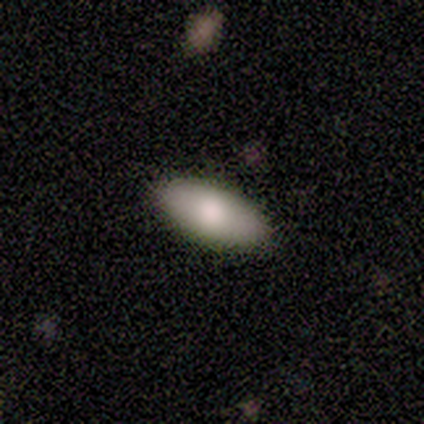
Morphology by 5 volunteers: A smooth galaxy with no disk features (80%) that is in between round and cigar-shaped (100%).

Vote fractions:
- Smooth or featured? smooth: 80% / featured or disk: 20% / star or artifact: 0%
- How rounded? in between: 100% / round: 0% / cigar-shaped: 0%
- Merging? none: 100% / minor disturbance: 0% / major disturbance: 0% / merger: 0%